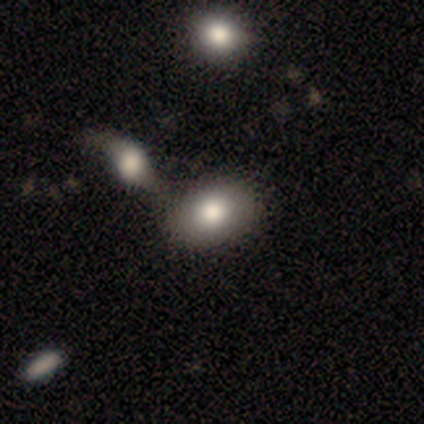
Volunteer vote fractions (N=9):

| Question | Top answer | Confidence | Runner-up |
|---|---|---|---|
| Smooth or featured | smooth | 78% | featured or disk (22%) |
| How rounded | in between | 100% | — |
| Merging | none | 67% | merger (33%) |